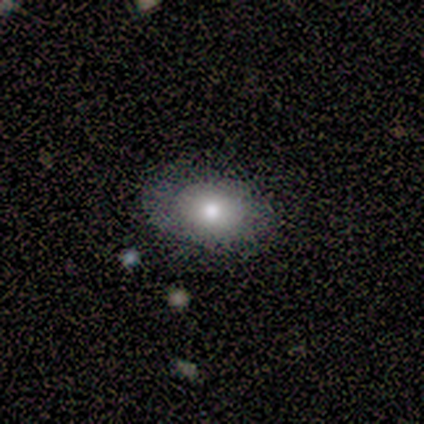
This appears to be a smooth galaxy with no disk features (100%) that is in between round and cigar-shaped (80%). Merging: none (100%).